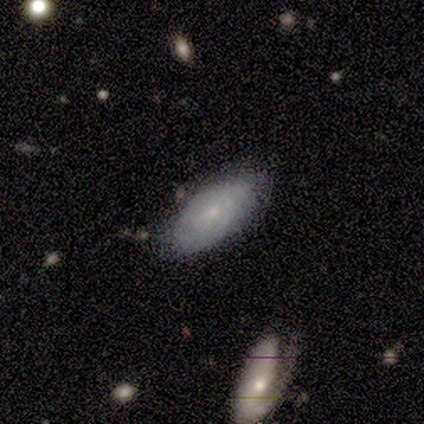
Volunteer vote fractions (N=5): Volunteers were most divided on "smooth or featured": featured or disk: 60%, smooth: 40%, star or artifact: 0%. More confident: edge-on disk — no (100%); bar — no (100%); spiral arms — yes (100%); bulge size — small (100%); merging — none (80%); spiral winding — tight (67%); spiral arm count — can't tell (67%).